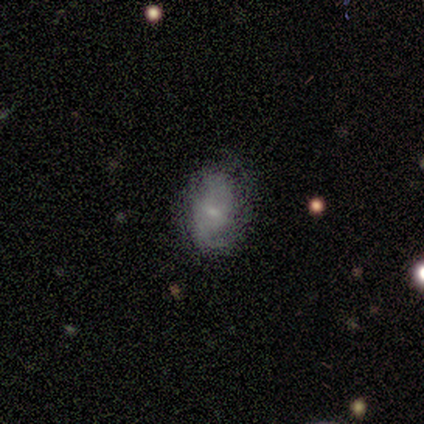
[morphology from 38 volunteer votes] Smooth or featured?
  - featured or disk: 61% *
  - smooth: 34%
  - star or artifact: 5%
Edge-on disk?
  - no: 100% *
  - yes: 0%
Bar?
  - weak: 52% *
  - no: 48%
  - strong: 0%
Spiral arms?
  - yes: 83% *
  - no: 17%
Spiral winding?
  - medium: 42% *
  - loose: 37%
  - tight: 21%
Spiral arm count?
  - 2: 79% *
  - 1: 11%
  - can't tell: 11%
  - 3: 0%
  - 4: 0%
  - more than 4: 0%
Bulge size?
  - small: 74% *
  - none: 17%
  - moderate: 9%
  - dominant: 0%
  - large: 0%
Merging?
  - none: 72% *
  - minor disturbance: 25%
  - major disturbance: 3%
  - merger: 0%